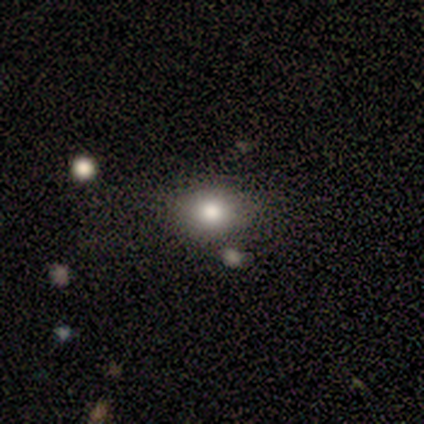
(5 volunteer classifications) This appears to be a smooth galaxy with no disk features (100%) that is in between round and cigar-shaped (60%). Merging: none (100%).